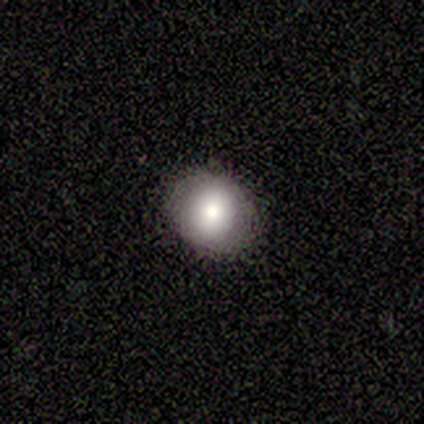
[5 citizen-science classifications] Volunteers were most divided on "how rounded" (2-way tie): round: 50%, in between: 50%, cigar-shaped: 0%. More confident: smooth or featured — smooth (80%); merging — none (80%).